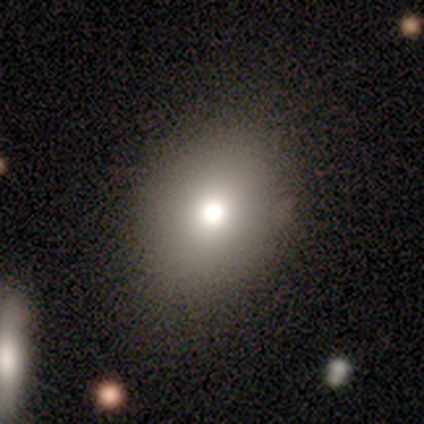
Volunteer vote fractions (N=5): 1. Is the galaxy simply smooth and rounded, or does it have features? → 80% smooth, 20% featured or disk, 0% star or artifact.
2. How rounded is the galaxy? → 75% round, 25% in between, 0% cigar-shaped.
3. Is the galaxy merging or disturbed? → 60% none, 40% minor disturbance, 0% major disturbance, 0% merger.